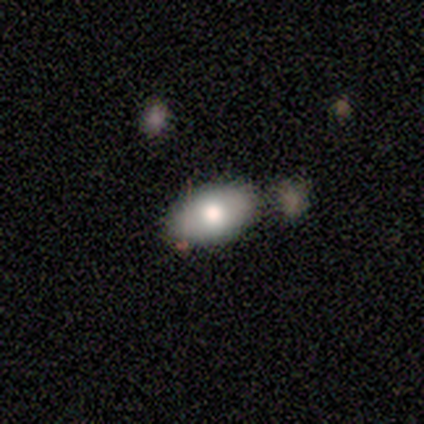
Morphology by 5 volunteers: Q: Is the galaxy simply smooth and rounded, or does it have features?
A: smooth — 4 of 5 (80%).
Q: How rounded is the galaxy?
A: in between — 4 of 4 (100%).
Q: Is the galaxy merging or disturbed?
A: none — 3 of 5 (60%).